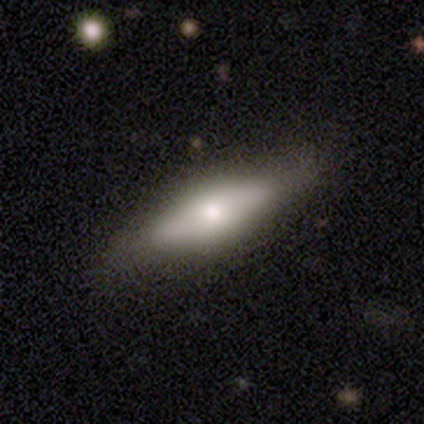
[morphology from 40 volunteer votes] type=smooth (50%); roundness=cigar-shaped (50%); merging=none (79%).